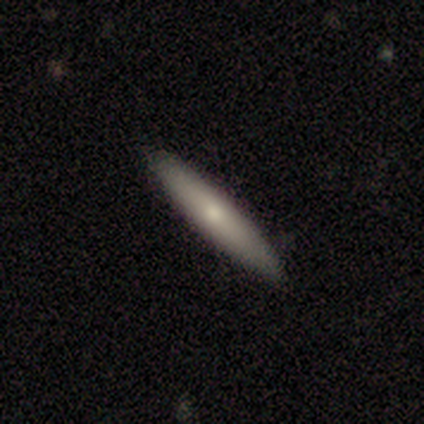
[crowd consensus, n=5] Smooth or featured? smooth (100%)
How rounded? cigar-shaped (100%)
Merging? none (100%)